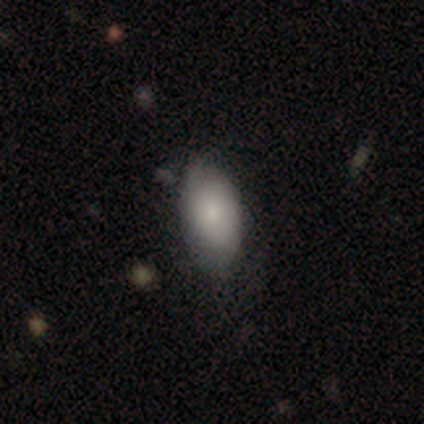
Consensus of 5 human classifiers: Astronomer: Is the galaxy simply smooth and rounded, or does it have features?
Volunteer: smooth — 80%.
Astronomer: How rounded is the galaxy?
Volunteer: in between — 100%.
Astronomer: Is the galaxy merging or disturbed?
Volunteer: none — 75%.